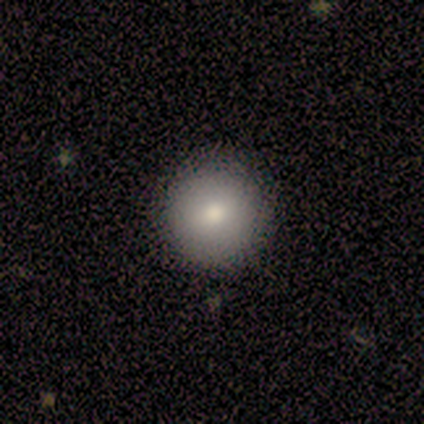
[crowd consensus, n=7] Smooth or featured?
  - smooth: 86% *
  - star or artifact: 14%
  - featured or disk: 0%
How rounded?
  - round: 100% *
  - in between: 0%
  - cigar-shaped: 0%
Merging?
  - none: 100% *
  - minor disturbance: 0%
  - major disturbance: 0%
  - merger: 0%